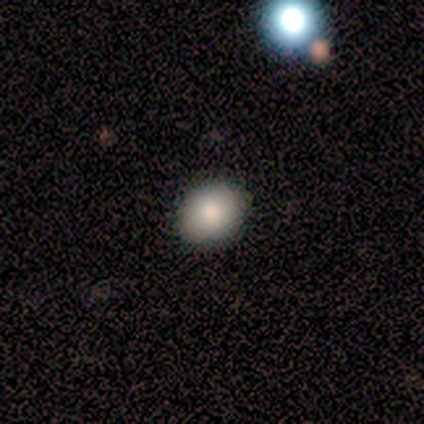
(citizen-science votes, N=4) smooth 50% (tied), star or artifact 50% (tied), featured or disk 0%. Down the decision tree: how rounded — round (50%, tied with in between); merging — none (100%).